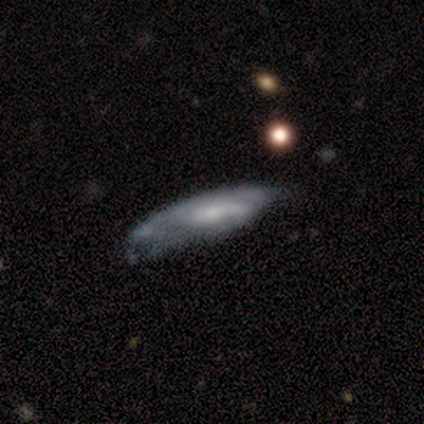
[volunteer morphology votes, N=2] smooth-or-featured: featured or disk: 100% | smooth: 0% | star or artifact: 0%
  disk-edge-on: yes: 50% (tied) | no: 50% (tied)
    edge-on-bulge: none: 100% | boxy: 0% | rounded: 0%
  merging: minor disturbance: 50% (tied) | major disturbance: 50% (tied) | none: 0% | merger: 0%